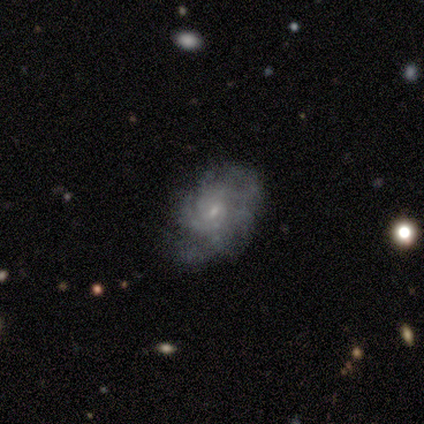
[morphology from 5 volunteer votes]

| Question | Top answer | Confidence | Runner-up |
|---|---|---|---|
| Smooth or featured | featured or disk | 80% | smooth (20%) |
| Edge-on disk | no | 100% | — |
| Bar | no | 75% | weak (25%) |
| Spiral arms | yes | 75% | no (25%) |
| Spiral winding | medium | 67% | tight (33%) |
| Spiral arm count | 2 | 33% | tied: 4 (33%), can't tell (33%) |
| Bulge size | small | 100% | — |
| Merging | minor disturbance | 80% | none (20%) |